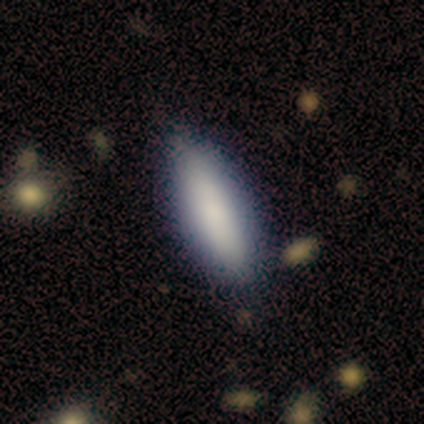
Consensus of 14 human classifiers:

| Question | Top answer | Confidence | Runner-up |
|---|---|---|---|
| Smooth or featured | smooth | 86% | featured or disk (14%) |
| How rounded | in between | 58% | cigar-shaped (42%) |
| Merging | none | 86% | minor disturbance (7%) |